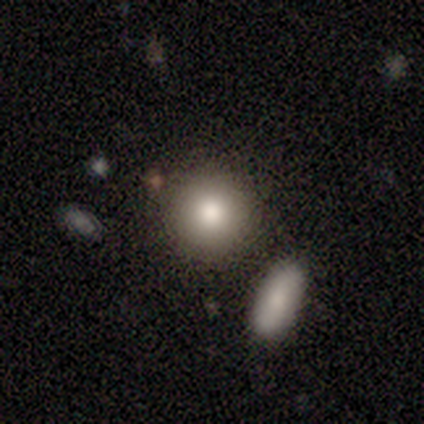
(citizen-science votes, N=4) This appears to be a smooth galaxy with no disk features (100%) that is round (100%). Merging: none (75%).